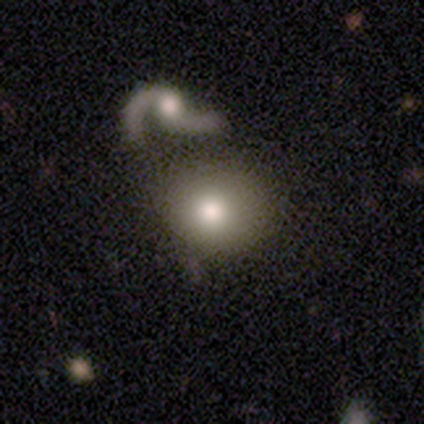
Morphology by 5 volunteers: This appears to be a smooth galaxy with no disk features (60%) that is in between round and cigar-shaped (67%). Merging: merger (80%).